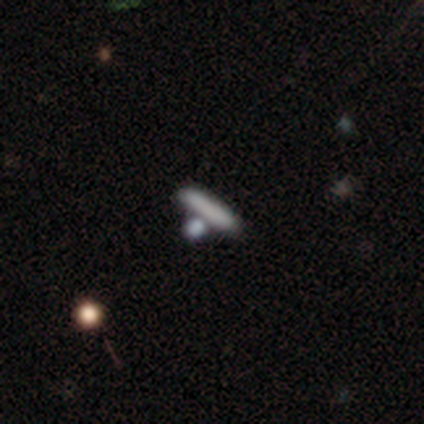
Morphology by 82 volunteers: smooth 63%, featured or disk 24%, star or artifact 12%. Down the decision tree: how rounded — cigar-shaped (92%); merging — none (65%).